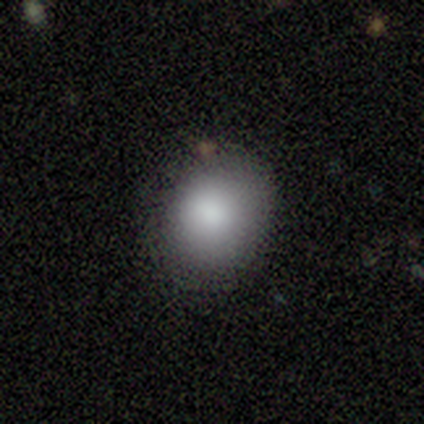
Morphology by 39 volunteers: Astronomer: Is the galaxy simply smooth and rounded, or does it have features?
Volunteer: smooth — 92%.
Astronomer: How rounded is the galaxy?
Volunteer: round — 67%.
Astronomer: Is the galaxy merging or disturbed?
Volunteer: none — 82%.